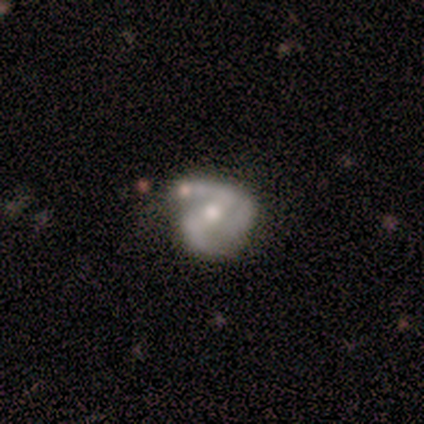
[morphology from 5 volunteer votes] smooth_or_featured: featured or disk (p=1.00)
disk_edge_on: no (p=1.00)
bar: weak (p=0.60) [alt: no p=0.40]
has_spiral_arms: yes (p=1.00)
spiral_winding: loose (p=0.60) [alt: medium p=0.40]
spiral_arm_count: 2 (p=0.80) [alt: 1 p=0.20]
bulge_size: moderate (p=0.80) [alt: small p=0.20]
merging: minor disturbance (p=0.40) [alt: none p=0.20]